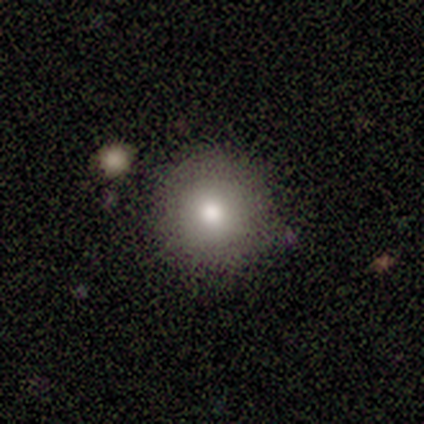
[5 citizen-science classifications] Q: Smooth or featured?
A: smooth (80%); runner-up: featured or disk (20%)
Q: How rounded?
A: round (75%); runner-up: in between (25%)
Q: Merging?
A: none (80%); runner-up: major disturbance (20%)